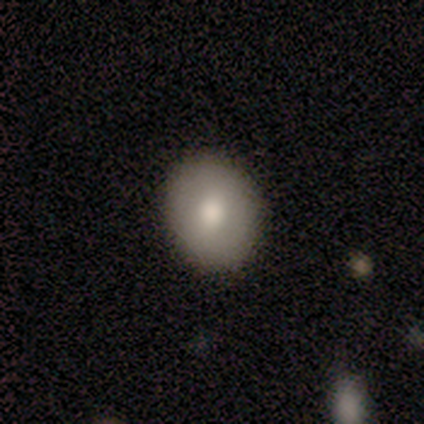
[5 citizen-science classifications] Smooth or featured? smooth (40%, tied with featured or disk)
How rounded? round (100%)
Merging? none (75%)